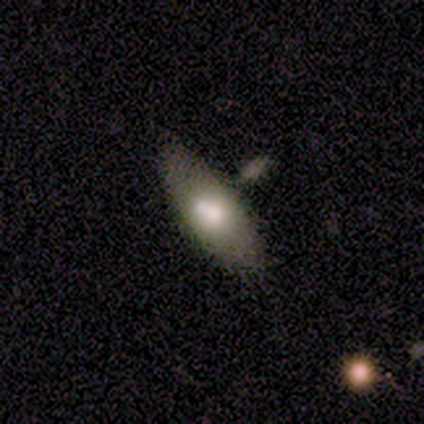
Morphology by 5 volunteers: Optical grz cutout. It shows a smooth galaxy with no disk features (60%) that is in between round and cigar-shaped (67%). Merging: none (50%, tied with minor disturbance).